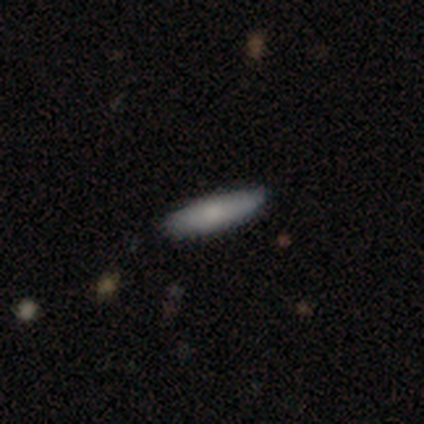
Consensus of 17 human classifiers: This is clearly a smooth galaxy (94%). How rounded: clearly cigar-shaped (81%). Merging: clearly none (100%).